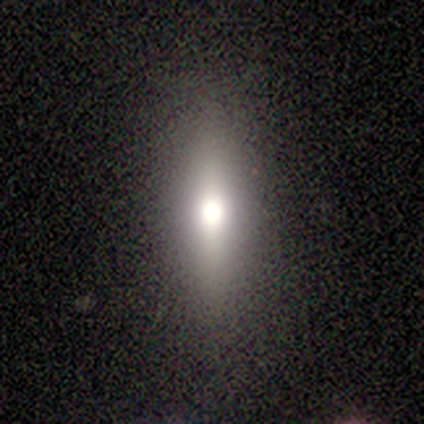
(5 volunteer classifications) Smooth or featured? 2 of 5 (40%, tied with featured or disk) said smooth. How rounded? 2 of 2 (100%) said cigar-shaped. Merging? 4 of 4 (100%) said none.